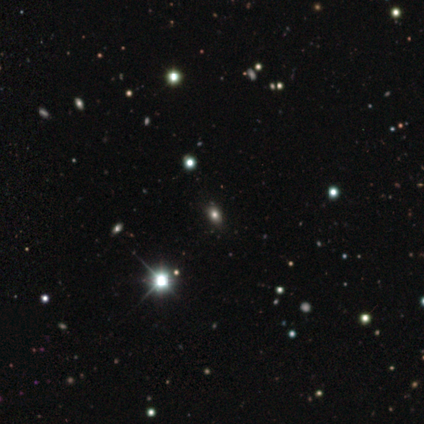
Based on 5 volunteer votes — Morphology: type=smooth (40%, tied with star or artifact); roundness=in between (100%); merging=none (67%).